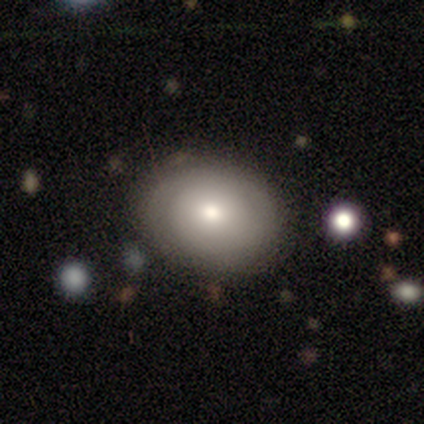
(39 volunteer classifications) Volunteers were most divided on "how rounded": in between: 58%, round: 42%, cigar-shaped: 0%. More confident: merging — none (87%); smooth or featured — smooth (67%).